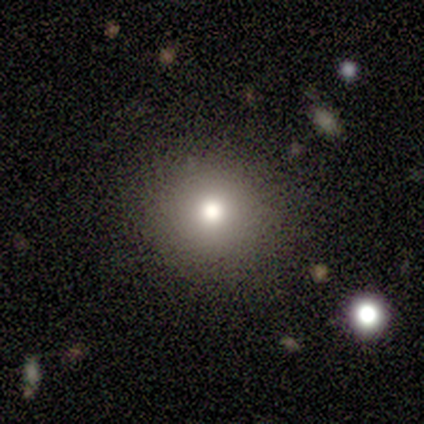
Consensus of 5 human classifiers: Morphology: type=smooth (60%); roundness=round (100%); merging=none (100%).